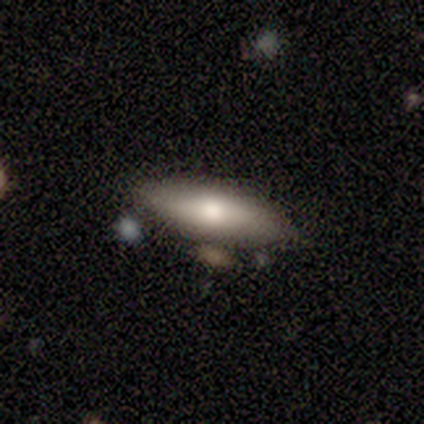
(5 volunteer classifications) Smooth or featured: featured or disk — 80% (smooth — 20%)
Edge-on disk: yes — 75% (no — 25%)
Edge-on bulge: rounded — 100%
Merging: none — 100%